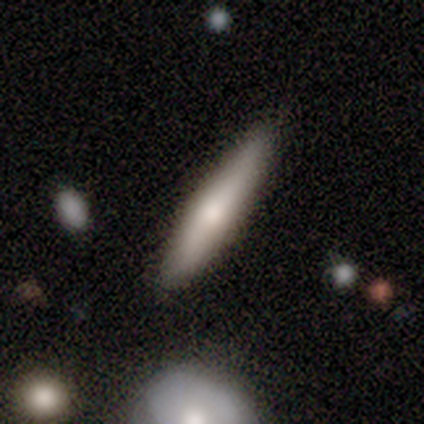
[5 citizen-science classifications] Smooth or featured? 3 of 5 (60%) said featured or disk. Edge-on disk? 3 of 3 (100%) said yes. Edge-on bulge? 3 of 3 (100%) said rounded. Merging? 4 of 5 (80%) said none.